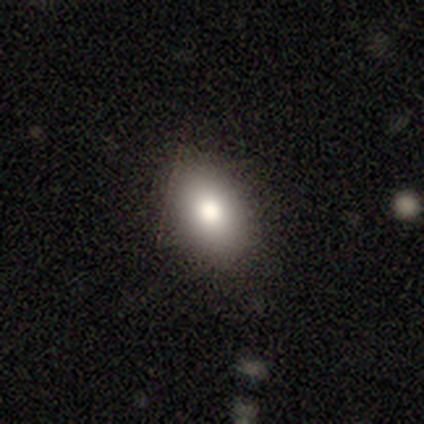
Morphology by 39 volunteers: Overall: smooth (79%). How rounded: in between (94%). Merging: none (91%).